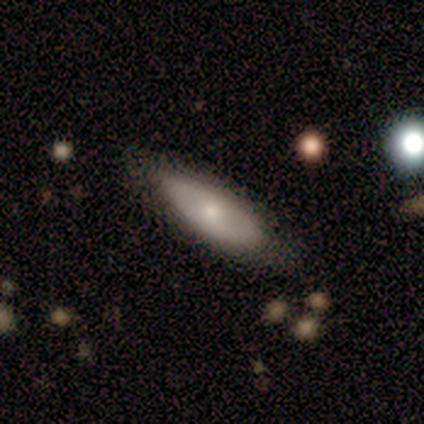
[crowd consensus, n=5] featured or disk 60%, star or artifact 40%, smooth 0%. Down the decision tree: edge-on disk — no (100%); bar — no (100%); spiral arms — no (100%); bulge size — large (33%, tied with moderate and small); merging — none (100%).